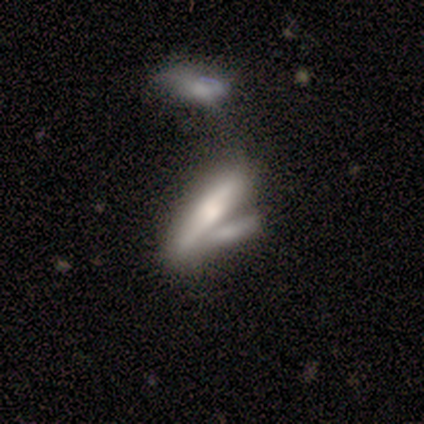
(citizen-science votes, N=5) This appears to be a featured or disk galaxy (80%) viewed edge-on (75%) with a rounded central bulge (67%). Merging: merger (80%).